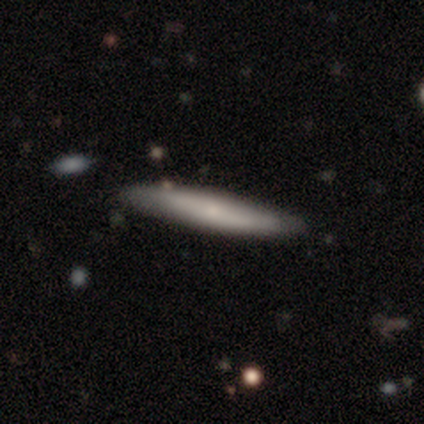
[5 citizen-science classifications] Smooth or featured: featured or disk — 60% (smooth — 20%)
Edge-on disk: yes — 100%
Edge-on bulge: none — 67% (rounded — 33%)
Merging: minor disturbance — 50% (none — 25%)